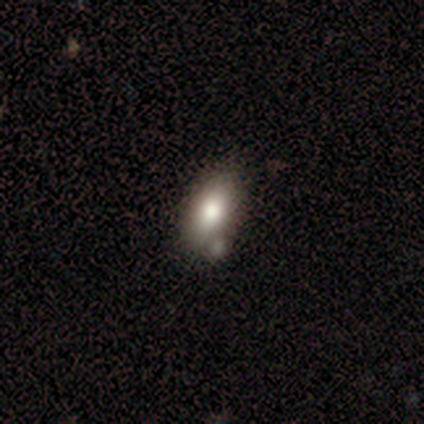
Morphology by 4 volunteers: Q: Smooth or featured?
A: smooth (100%)
Q: How rounded?
A: in between (100%)
Q: Merging?
A: none (75%); runner-up: minor disturbance (25%)